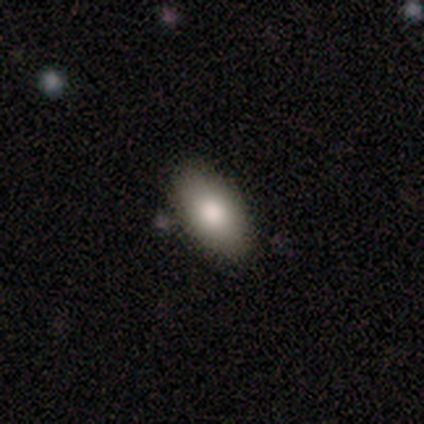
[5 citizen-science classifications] Smooth or featured? 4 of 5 (80%) said smooth. How rounded? 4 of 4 (100%) said in between. Merging? 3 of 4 (75%) said none.